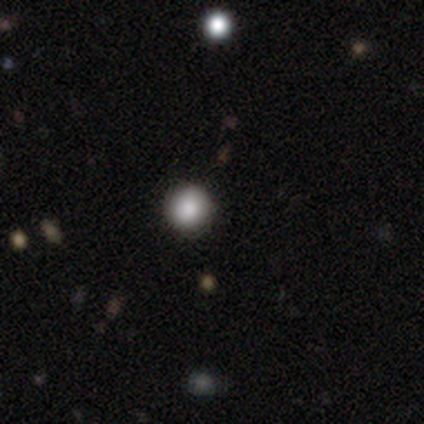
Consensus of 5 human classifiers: smooth 60%, featured or disk 20%, star or artifact 20%. Down the decision tree: how rounded — round (100%); merging — none (75%).